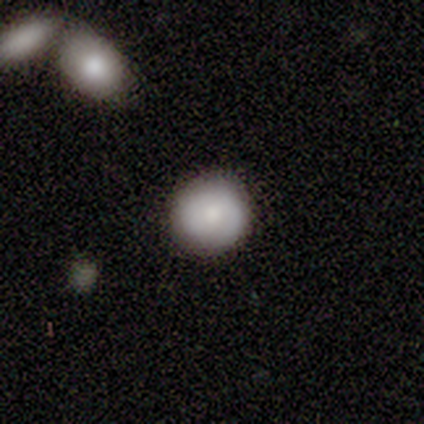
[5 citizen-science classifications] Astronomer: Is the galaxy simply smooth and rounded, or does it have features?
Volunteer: smooth — 80%.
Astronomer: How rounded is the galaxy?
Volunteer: round — 75%.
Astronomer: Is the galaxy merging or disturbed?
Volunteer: none — 100%.